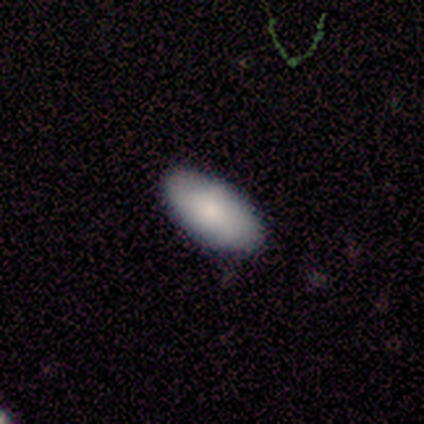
A smooth galaxy with no disk features (100%) that is in between round and cigar-shaped (100%).

Vote fractions:
- Smooth or featured? smooth: 100% / featured or disk: 0% / star or artifact: 0%
- How rounded? in between: 100% / round: 0% / cigar-shaped: 0%
- Merging? none: 83% / minor disturbance: 17% / major disturbance: 0% / merger: 0%